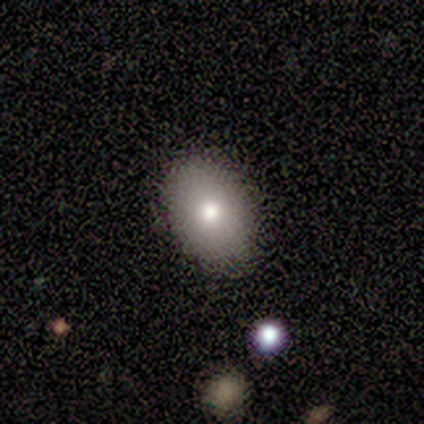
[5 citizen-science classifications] smooth 60%, featured or disk 40%, star or artifact 0%. Down the decision tree: how rounded — in between (100%); merging — none (60%).